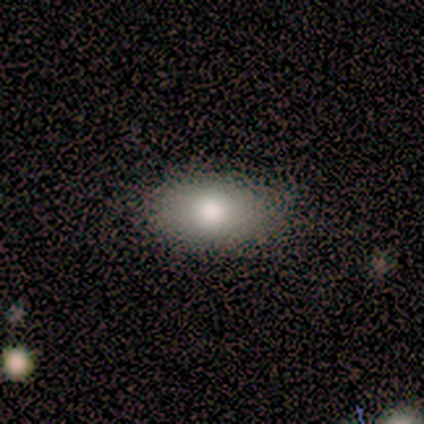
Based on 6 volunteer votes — A smooth galaxy with no disk features (100%) that is in between round and cigar-shaped (100%). Merging: none (100%).